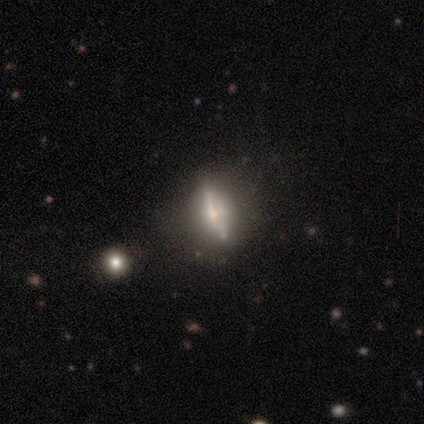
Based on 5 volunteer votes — A featured or disk galaxy (80%) viewed edge-on (75%) with a rounded central bulge (100%). Merging: none (40%, tied with minor disturbance).